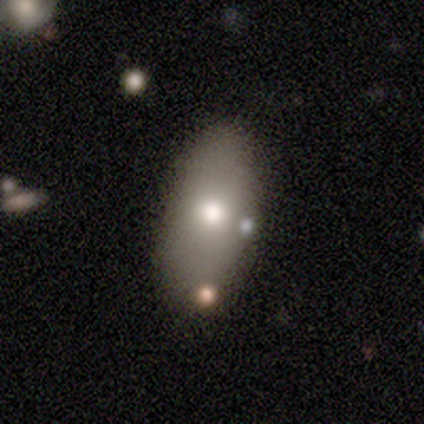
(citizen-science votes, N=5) Q: Smooth or featured?
A: smooth (80%); runner-up: featured or disk (20%)
Q: How rounded?
A: in between (100%)
Q: Merging?
A: none (60%); runner-up: minor disturbance (20%)